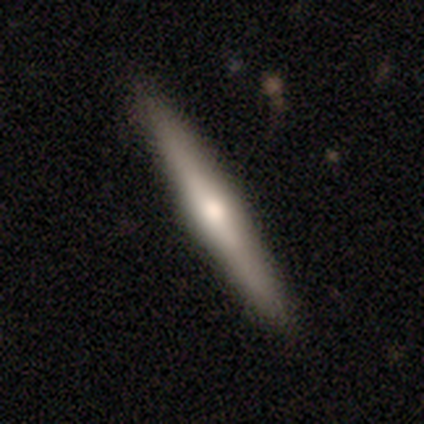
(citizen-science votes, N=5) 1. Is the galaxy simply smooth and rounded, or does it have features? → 100% featured or disk, 0% smooth, 0% star or artifact.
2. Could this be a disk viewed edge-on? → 80% yes, 20% no.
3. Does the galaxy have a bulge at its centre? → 50% none (tied), 50% rounded (tied), 0% boxy.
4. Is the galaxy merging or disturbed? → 60% none, 40% minor disturbance, 0% major disturbance, 0% merger.